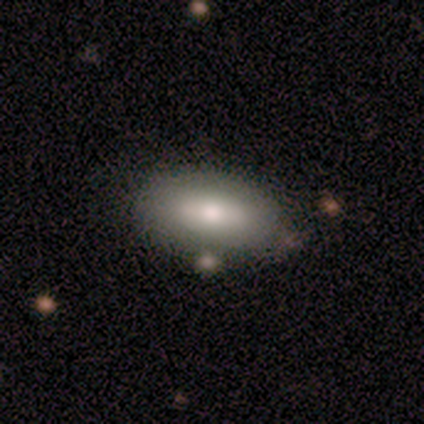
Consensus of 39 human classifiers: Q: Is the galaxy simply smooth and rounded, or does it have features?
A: smooth — 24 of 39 (62%).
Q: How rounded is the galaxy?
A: in between — 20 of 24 (83%).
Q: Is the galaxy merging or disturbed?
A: none — 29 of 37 (78%).